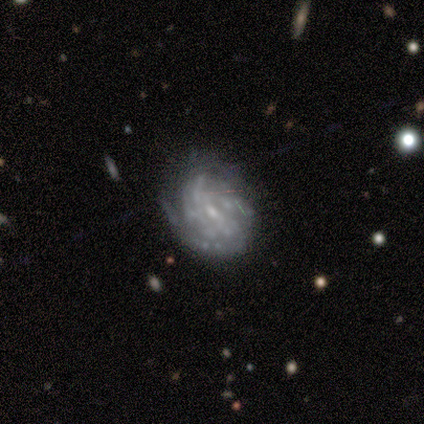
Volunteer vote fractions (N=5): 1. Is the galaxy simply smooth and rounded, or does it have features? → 80% featured or disk, 20% smooth, 0% star or artifact.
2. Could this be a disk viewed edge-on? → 100% no, 0% yes.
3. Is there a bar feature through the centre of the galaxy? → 75% strong, 25% weak, 0% no.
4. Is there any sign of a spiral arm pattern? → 75% yes, 25% no.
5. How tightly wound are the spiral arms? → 67% tight, 33% loose, 0% medium.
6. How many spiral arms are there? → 67% can't tell, 33% 4, 0% 1, 0% 2, 0% 3, 0% more than 4.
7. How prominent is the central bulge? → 75% small, 25% moderate, 0% dominant, 0% large, 0% none.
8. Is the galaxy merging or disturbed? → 60% none, 40% minor disturbance, 0% major disturbance, 0% merger.